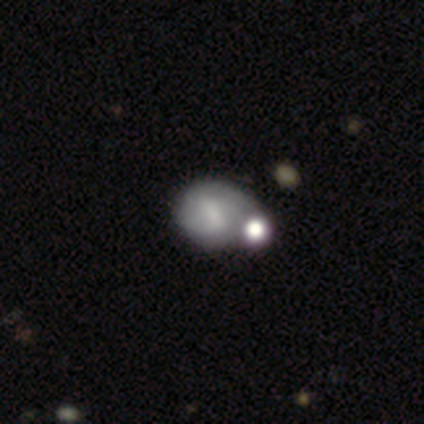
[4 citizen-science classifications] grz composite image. It shows a featured or disk galaxy (50%) with a weak bar (50%, tied with no), 2 (50%, tied with can't tell) tight (50%, tied with medium) spiral arms (100%) and no central bulge (100%). Merging: minor disturbance (67%).